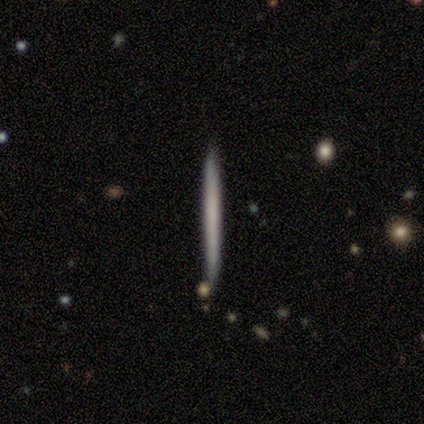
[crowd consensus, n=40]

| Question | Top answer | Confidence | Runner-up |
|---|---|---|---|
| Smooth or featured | smooth | 55% | featured or disk (42%) |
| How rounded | cigar-shaped | 100% | — |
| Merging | none | 87% | minor disturbance (10%) |